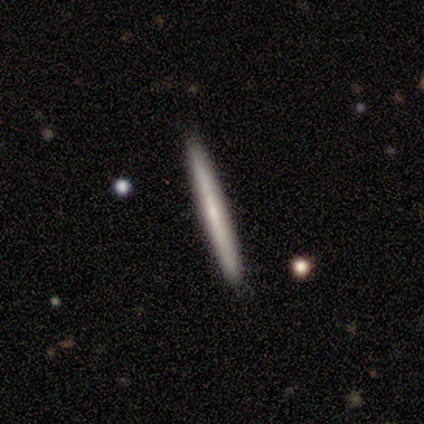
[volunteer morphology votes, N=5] type=smooth (60%); roundness=cigar-shaped (100%); merging=none (100%).